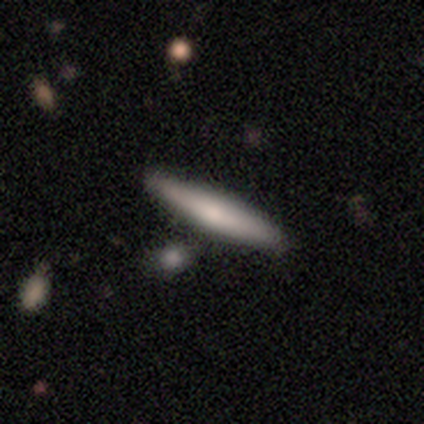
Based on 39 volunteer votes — Smooth or featured?
  - smooth: 59% *
  - featured or disk: 33%
  - star or artifact: 8%
How rounded?
  - cigar-shaped: 96% *
  - in between: 4%
  - round: 0%
Merging?
  - none: 86% *
  - minor disturbance: 8%
  - major disturbance: 3%
  - merger: 3%